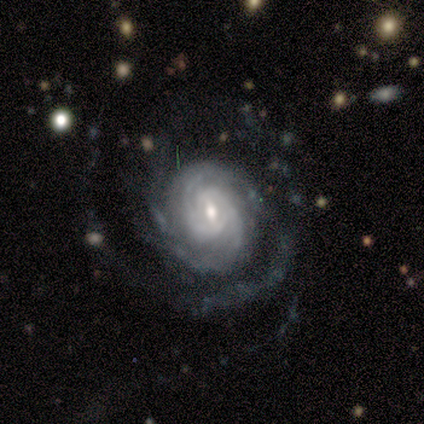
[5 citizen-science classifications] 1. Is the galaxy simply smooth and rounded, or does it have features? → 80% featured or disk, 20% smooth, 0% star or artifact.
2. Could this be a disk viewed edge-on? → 100% no, 0% yes.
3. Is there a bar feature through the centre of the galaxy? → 100% no, 0% strong, 0% weak.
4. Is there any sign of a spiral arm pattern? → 100% yes, 0% no.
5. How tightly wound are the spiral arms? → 50% tight (tied), 50% medium (tied), 0% loose.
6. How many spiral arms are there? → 75% can't tell, 25% 3, 0% 1, 0% 2, 0% 4, 0% more than 4.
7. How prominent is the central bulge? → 50% moderate (tied), 50% small (tied), 0% dominant, 0% large, 0% none.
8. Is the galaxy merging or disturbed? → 60% none, 20% minor disturbance, 20% major disturbance, 0% merger.